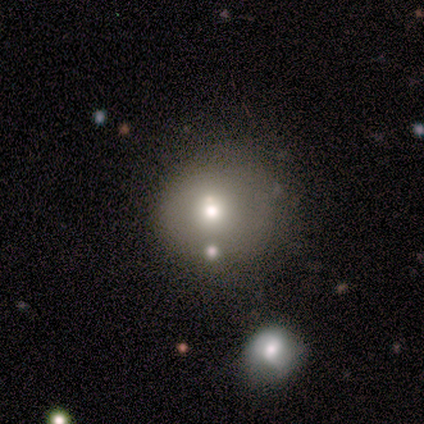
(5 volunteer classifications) This is clearly a smooth galaxy (80%). How rounded: clearly round (100%). Merging: clearly none (80%).